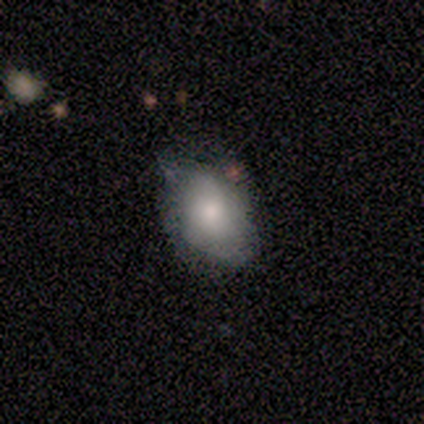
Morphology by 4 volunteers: type=featured or disk (75%); edge-on=no (100%); bar=no (100%); spiral arms=yes (67%); winding=tight (100%); arm count=can't tell (100%); bulge=moderate (33%, tied with small and none); merging=minor disturbance (75%).